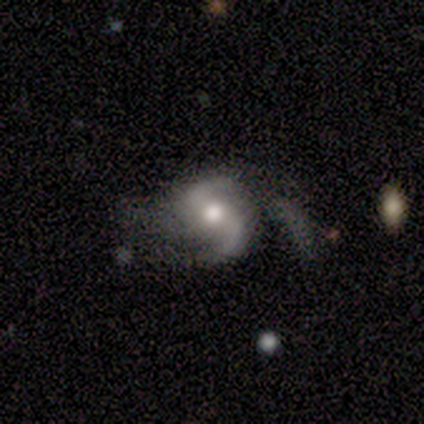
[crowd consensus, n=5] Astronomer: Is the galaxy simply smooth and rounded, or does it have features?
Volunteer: featured or disk — 100%.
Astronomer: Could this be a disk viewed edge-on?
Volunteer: no — 100%.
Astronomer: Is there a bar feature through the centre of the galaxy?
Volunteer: no — 60% (runner-up: weak, 40%).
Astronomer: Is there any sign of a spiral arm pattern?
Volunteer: yes — 100%.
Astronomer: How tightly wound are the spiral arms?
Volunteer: loose — 60% (runner-up: medium, 40%).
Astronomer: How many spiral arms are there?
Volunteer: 2 — 80%.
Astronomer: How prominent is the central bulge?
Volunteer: moderate — 80%.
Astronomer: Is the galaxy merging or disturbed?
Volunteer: none — 40%, tied with major disturbance at 40%.